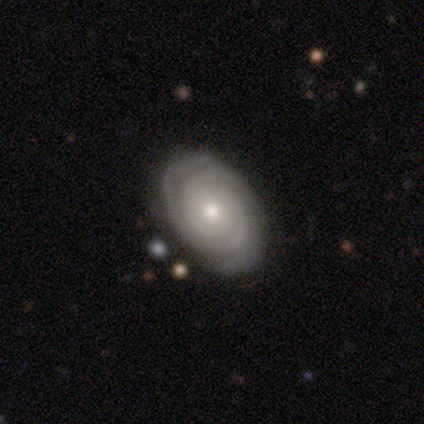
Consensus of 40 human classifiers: featured or disk 88%, smooth 10%, star or artifact 2%. Down the decision tree: edge-on disk — no (97%); bar — no (85%); spiral arms — yes (100%); spiral arm count — 2 (50%); spiral winding — tight (94%); bulge size — moderate (59%); merging — none (67%).